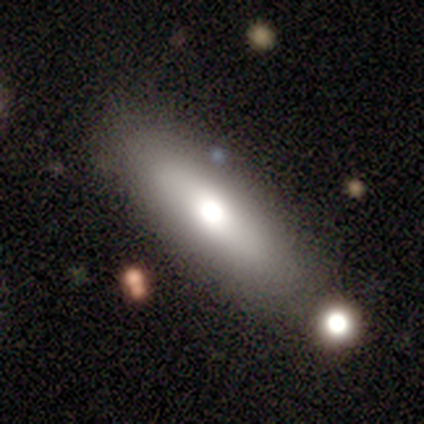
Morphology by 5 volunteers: type=smooth (80%); roundness=cigar-shaped (75%); merging=none (40%).